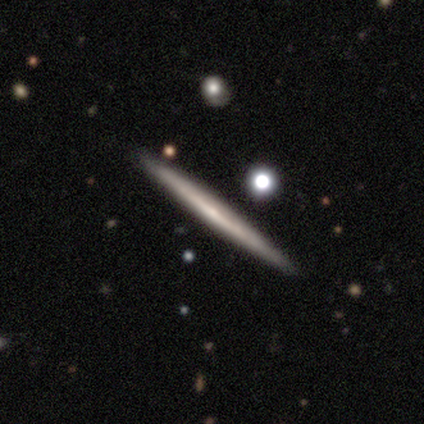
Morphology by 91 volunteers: Smooth or featured? 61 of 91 (67%) said featured or disk. Edge-on disk? 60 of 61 (98%) said yes. Edge-on bulge? 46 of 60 (77%) said none. Merging? 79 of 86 (92%) said none.